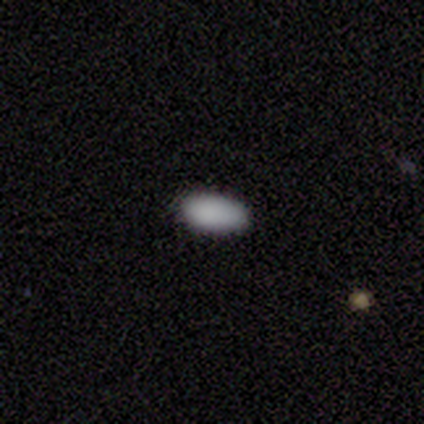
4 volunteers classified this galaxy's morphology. A smooth galaxy with no disk features (100%) that is in between round and cigar-shaped (100%).

Vote fractions:
- Smooth or featured? smooth: 100% / featured or disk: 0% / star or artifact: 0%
- How rounded? in between: 100% / round: 0% / cigar-shaped: 0%
- Merging? none: 100% / minor disturbance: 0% / major disturbance: 0% / merger: 0%